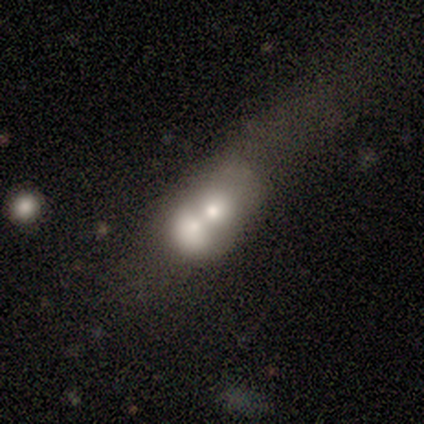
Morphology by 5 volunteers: Overall: featured or disk (80%). Edge-on disk: yes (50%, tied with no). Edge-on bulge: boxy (50%, tied with none). Merging: merger (80%).